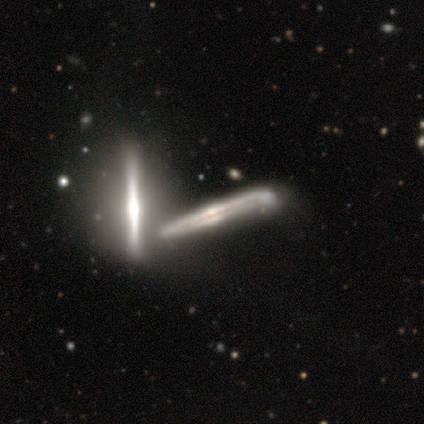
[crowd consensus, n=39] Smooth or featured: featured or disk — 92% (star or artifact — 5%)
Edge-on disk: yes — 94% (no — 6%)
Edge-on bulge: rounded — 68% (none — 18%)
Merging: merger — 46% (none — 30%)